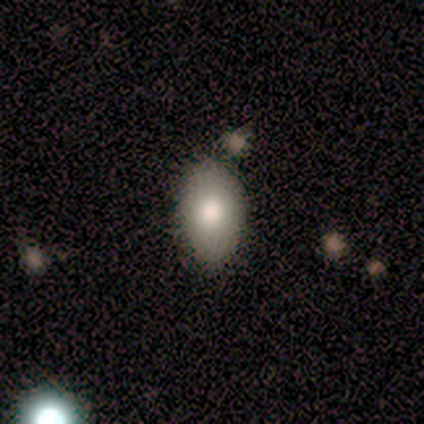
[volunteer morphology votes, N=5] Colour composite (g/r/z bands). It shows a smooth galaxy with no disk features (100%) that is in between round and cigar-shaped (100%). Merging: none (80%).